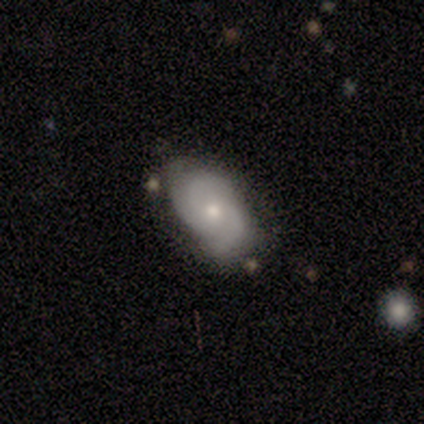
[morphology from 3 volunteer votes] featured or disk 100%, smooth 0%, star or artifact 0%. Down the decision tree: edge-on disk — no (67%); bar — weak (50%, tied with no); spiral arms — yes (100%); spiral arm count — 2 (100%); spiral winding — medium (100%); bulge size — moderate (50%, tied with none); merging — none (100%).